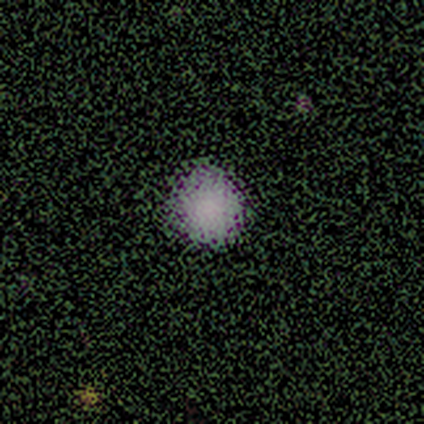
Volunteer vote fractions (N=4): Smooth or featured: smooth — 50% (tied with star or artifact — 50%)
How rounded: round — 100%
Merging: none — 100%